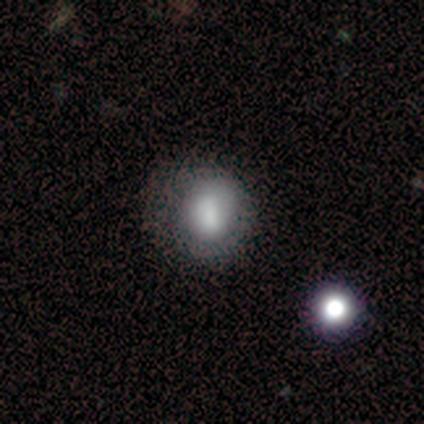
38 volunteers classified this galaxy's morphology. smooth 71%, featured or disk 16%, star or artifact 13%. Down the decision tree: how rounded — round (85%); merging — none (61%).